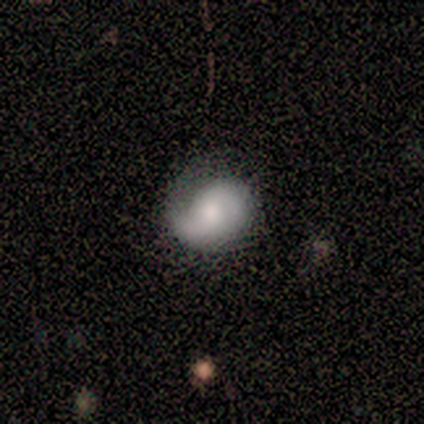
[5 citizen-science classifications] Smooth or featured? smooth (60%)
How rounded? round (100%)
Merging? minor disturbance (60%)